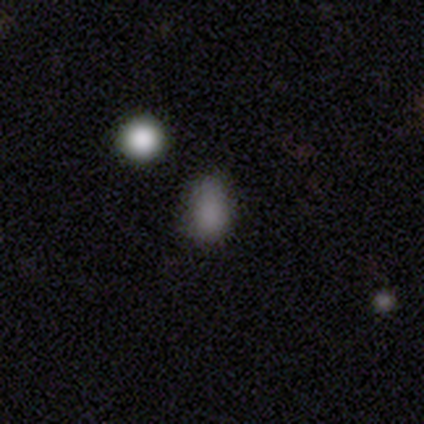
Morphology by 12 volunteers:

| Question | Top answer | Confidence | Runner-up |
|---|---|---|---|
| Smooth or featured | smooth | 92% | star or artifact (8%) |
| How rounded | in between | 73% | round (27%) |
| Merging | none | 73% | minor disturbance (18%) |